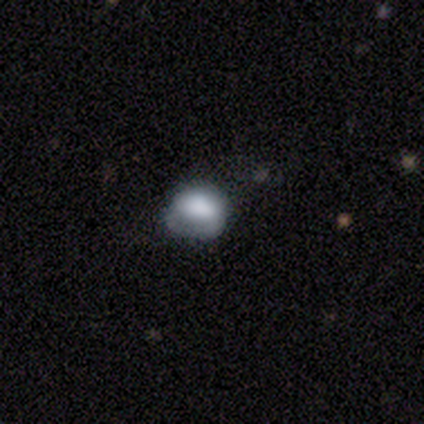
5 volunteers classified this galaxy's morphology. Overall: smooth (40%, tied with featured or disk). How rounded: round (50%, tied with in between). Merging: minor disturbance (50%, tied with major disturbance).